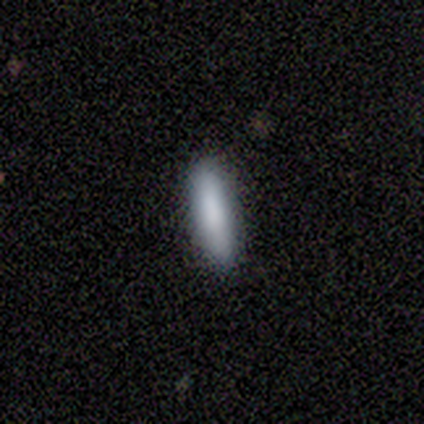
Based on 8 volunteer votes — Overall: smooth (88%). How rounded: cigar-shaped (86%). Merging: none (75%).